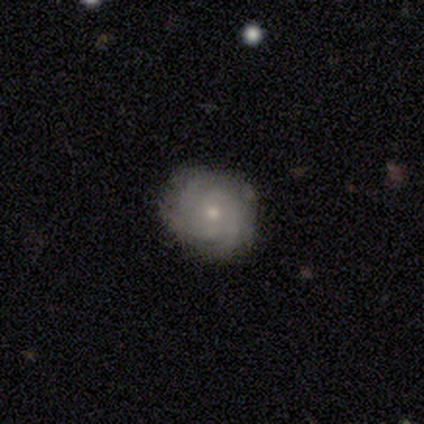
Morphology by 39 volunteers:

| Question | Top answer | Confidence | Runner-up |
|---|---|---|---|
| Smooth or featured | featured or disk | 64% | smooth (31%) |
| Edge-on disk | no | 100% | — |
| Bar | no | 80% | weak (20%) |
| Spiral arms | yes | 84% | no (16%) |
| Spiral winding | tight | 67% | medium (33%) |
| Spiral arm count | can't tell | 38% | 2 (24%) |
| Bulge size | small | 68% | moderate (32%) |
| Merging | none | 81% | minor disturbance (16%) |